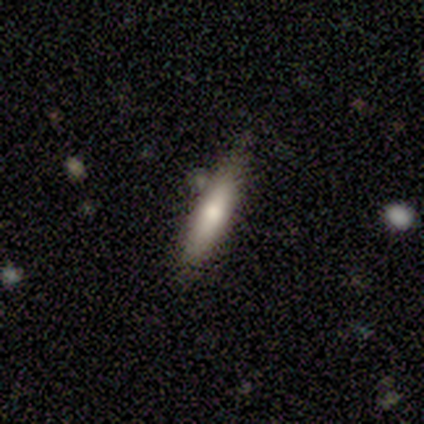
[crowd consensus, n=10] Overall: smooth (90%). How rounded: cigar-shaped (100%). Merging: none (80%).